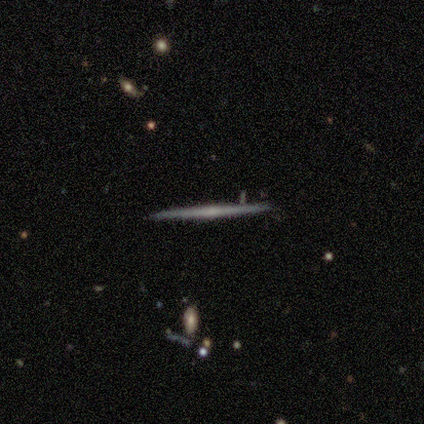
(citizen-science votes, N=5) smooth-or-featured: featured or disk: 60% | smooth: 40% | star or artifact: 0%
  disk-edge-on: yes: 100% | no: 0%
    edge-on-bulge: none: 67% | rounded: 33% | boxy: 0%
  merging: none: 100% | minor disturbance: 0% | major disturbance: 0% | merger: 0%